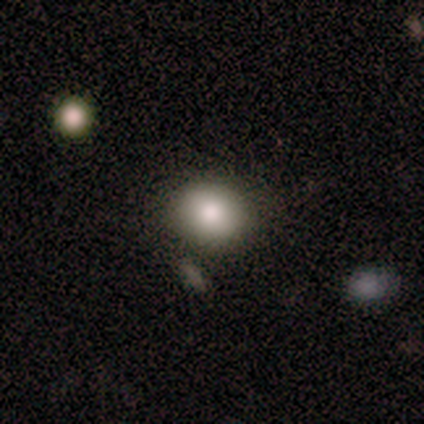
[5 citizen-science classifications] smooth_or_featured: smooth (p=0.60) [alt: featured or disk p=0.40]
how_rounded: in between (p=0.67) [alt: round p=0.33]
merging: none (p=0.80) [alt: minor disturbance p=0.20]